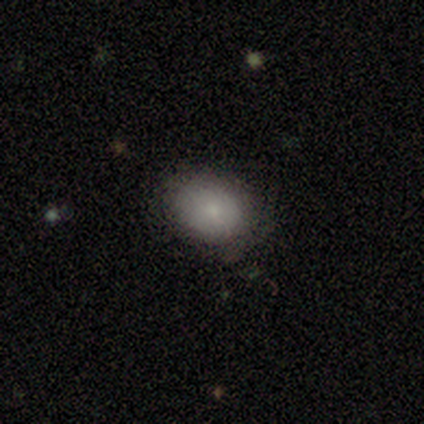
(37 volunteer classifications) This is clearly a smooth galaxy (86%). How rounded: likely in between (66%). Merging: likely none (76%).